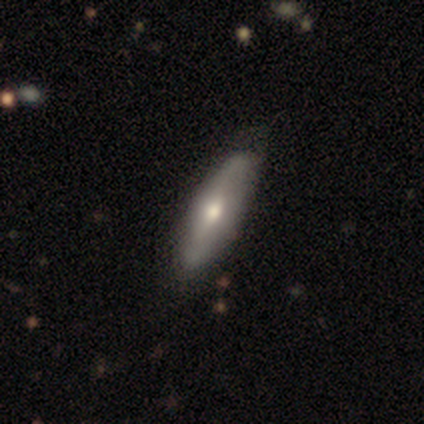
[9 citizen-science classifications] smooth-or-featured: smooth: 56% | featured or disk: 44% | star or artifact: 0%
  how-rounded: in between: 60% | cigar-shaped: 40% | round: 0%
  merging: none: 67% | minor disturbance: 33% | major disturbance: 0% | merger: 0%